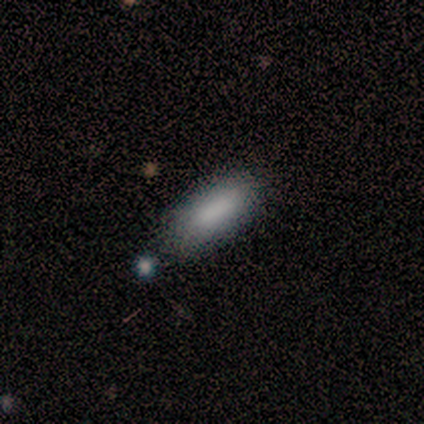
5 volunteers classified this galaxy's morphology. This appears to be a smooth galaxy with no disk features (100%) that is cigar-shaped (60%). Merging: none (60%).